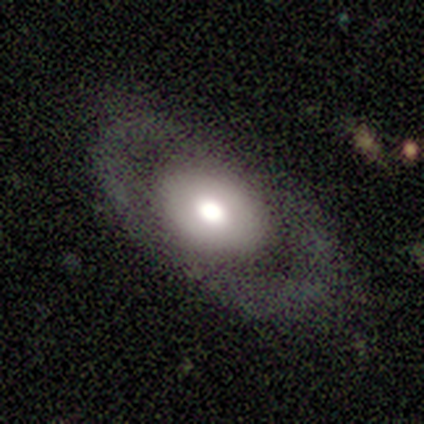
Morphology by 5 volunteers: A smooth galaxy with no disk features (80%) that is in between round and cigar-shaped (100%).

Vote fractions:
- Smooth or featured? smooth: 80% / featured or disk: 20% / star or artifact: 0%
- How rounded? in between: 100% / round: 0% / cigar-shaped: 0%
- Merging? none: 60% / major disturbance: 40% / minor disturbance: 0% / merger: 0%